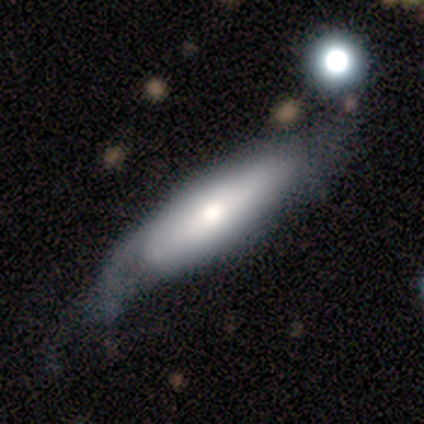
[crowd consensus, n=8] Overall: smooth (50%, tied with featured or disk). How rounded: in between (75%). Merging: minor disturbance (62%).